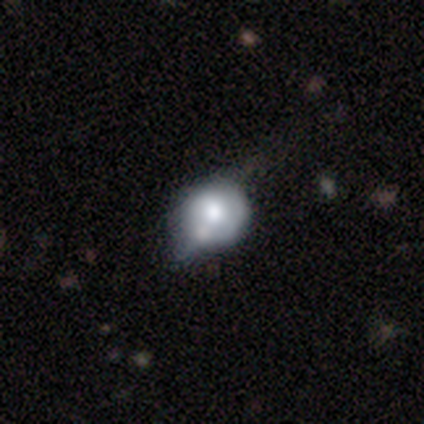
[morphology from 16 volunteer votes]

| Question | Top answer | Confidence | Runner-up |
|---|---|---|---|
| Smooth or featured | featured or disk | 75% | smooth (25%) |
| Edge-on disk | no | 83% | yes (17%) |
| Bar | no | 90% | weak (10%) |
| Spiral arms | no | 90% | yes (10%) |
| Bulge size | moderate | 60% | large (40%) |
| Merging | none | 56% | merger (19%) |